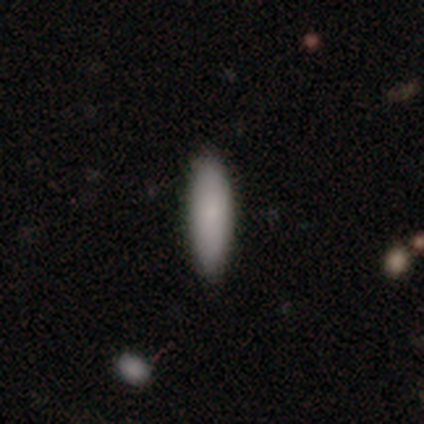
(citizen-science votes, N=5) smooth-or-featured: smooth: 80% | featured or disk: 20% | star or artifact: 0%
  how-rounded: in between: 50% (tied) | cigar-shaped: 50% (tied) | round: 0%
  merging: none: 100% | minor disturbance: 0% | major disturbance: 0% | merger: 0%